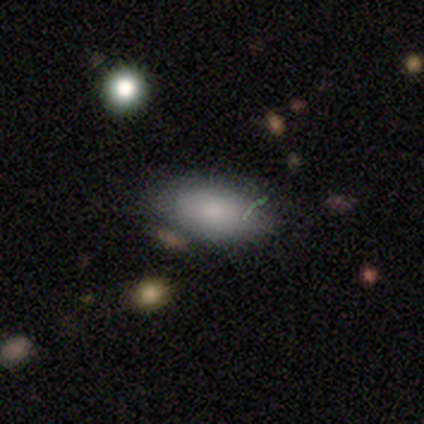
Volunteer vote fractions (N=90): A smooth galaxy with no disk features (80%) that is in between round and cigar-shaped (94%). Merging: none (73%).